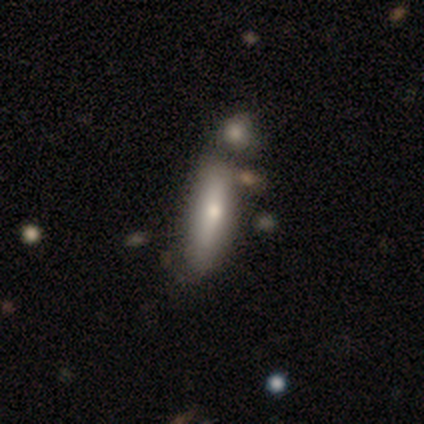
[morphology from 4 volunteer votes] smooth 75%, featured or disk 25%, star or artifact 0%. Down the decision tree: how rounded — in between (67%); merging — merger (50%).